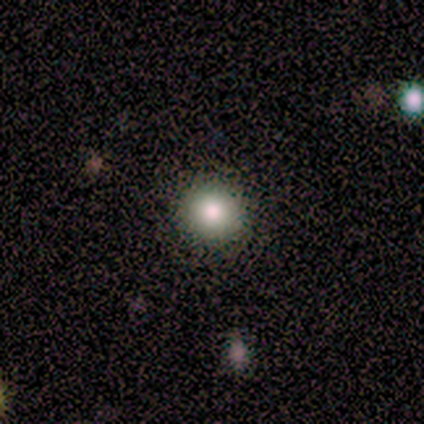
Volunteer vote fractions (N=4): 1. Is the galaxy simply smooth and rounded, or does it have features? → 100% smooth, 0% featured or disk, 0% star or artifact.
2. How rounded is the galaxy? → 100% round, 0% in between, 0% cigar-shaped.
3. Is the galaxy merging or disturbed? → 100% none, 0% minor disturbance, 0% major disturbance, 0% merger.